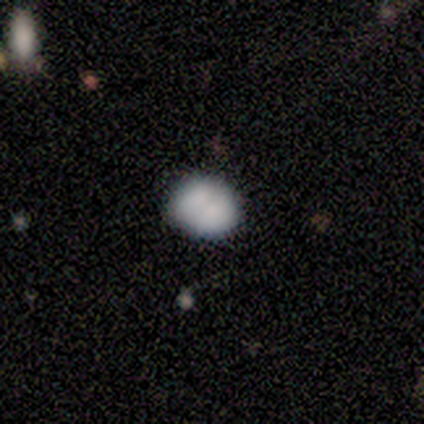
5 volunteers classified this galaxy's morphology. Smooth or featured?
  - smooth: 100% *
  - featured or disk: 0%
  - star or artifact: 0%
How rounded?
  - in between: 80% *
  - round: 20%
  - cigar-shaped: 0%
Merging?
  - none: 40% * (tied)
  - minor disturbance: 40% * (tied)
  - merger: 20%
  - major disturbance: 0%